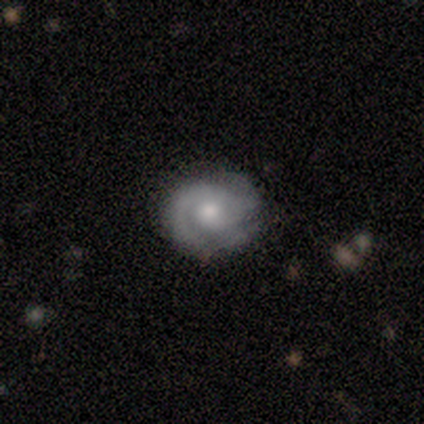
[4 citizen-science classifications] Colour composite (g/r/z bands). It shows a smooth galaxy with no disk features (50%, tied with featured or disk) that is round (100%). Merging: none (100%).